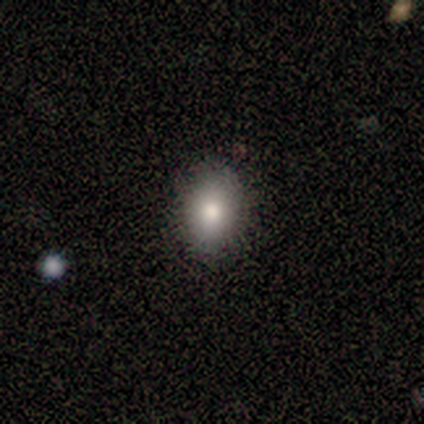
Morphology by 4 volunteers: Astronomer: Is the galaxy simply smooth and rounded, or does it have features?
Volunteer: smooth — 75%.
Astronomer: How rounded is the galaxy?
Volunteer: in between — 100%.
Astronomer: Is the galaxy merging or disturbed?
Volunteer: none — 100%.